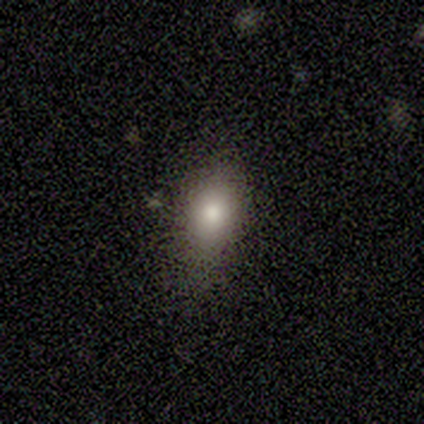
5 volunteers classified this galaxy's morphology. star or artifact 60%, smooth 40%, featured or disk 0%.